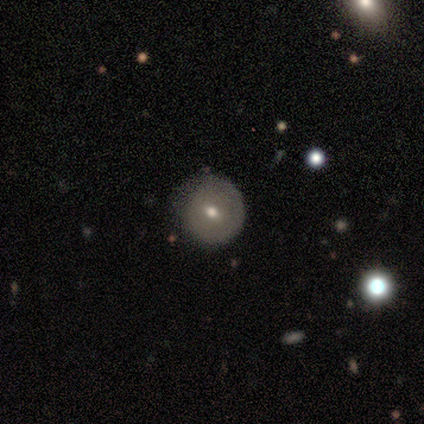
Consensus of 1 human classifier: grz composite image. It shows a smooth galaxy with no disk features (100%) that is round (100%). Merging: minor disturbance (100%).